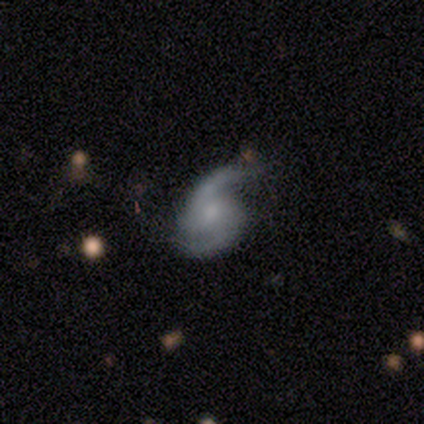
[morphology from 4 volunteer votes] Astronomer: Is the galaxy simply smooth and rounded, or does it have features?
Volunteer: featured or disk — 100%.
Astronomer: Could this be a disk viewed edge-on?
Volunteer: no — 100%.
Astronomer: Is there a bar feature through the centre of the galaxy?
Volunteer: no — 75%.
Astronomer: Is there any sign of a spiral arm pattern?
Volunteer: yes — 100%.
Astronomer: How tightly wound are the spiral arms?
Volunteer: medium — 75%.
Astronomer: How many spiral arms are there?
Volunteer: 2 — 75%.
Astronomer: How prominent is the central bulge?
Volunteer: moderate — 50%, tied with small at 50%.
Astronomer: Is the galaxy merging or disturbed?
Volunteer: none — 50%.